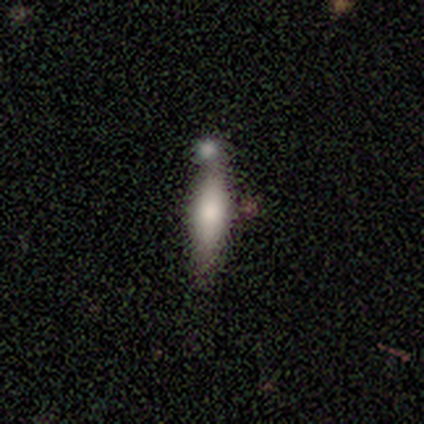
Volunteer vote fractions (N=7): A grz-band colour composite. It shows a smooth galaxy with no disk features (43%) that is cigar-shaped (67%). Merging: none (60%).